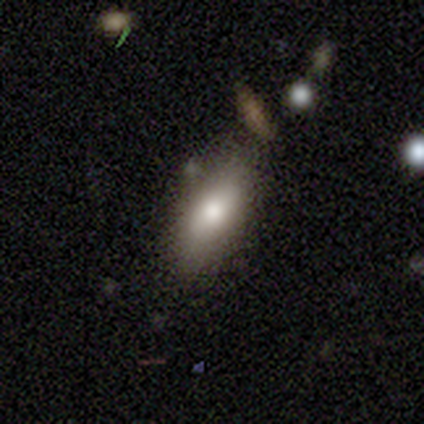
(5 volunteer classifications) Morphology: type=smooth (60%); roundness=cigar-shaped (67%); merging=none (80%).